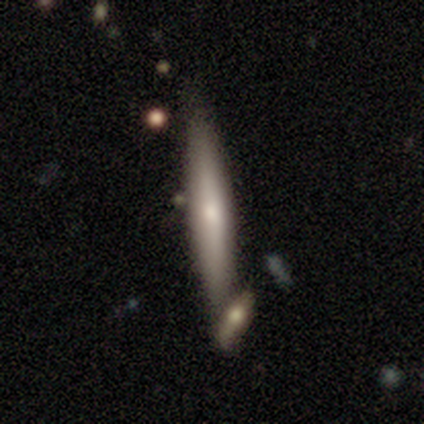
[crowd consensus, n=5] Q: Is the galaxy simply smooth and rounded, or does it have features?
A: smooth — 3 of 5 (60%).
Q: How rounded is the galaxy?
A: cigar-shaped — 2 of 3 (67%).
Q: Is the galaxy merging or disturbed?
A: none — 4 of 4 (100%).